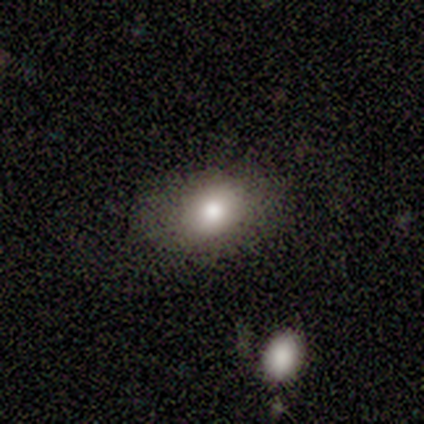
Morphology: type=smooth (80%); roundness=in between (100%); merging=none (100%).